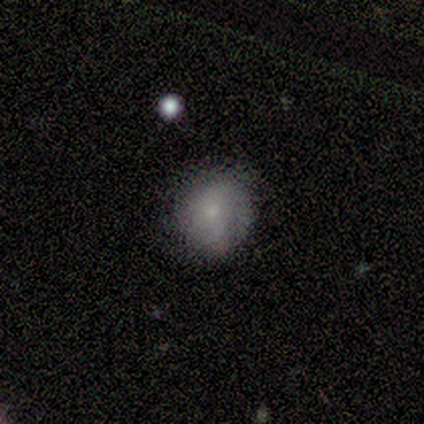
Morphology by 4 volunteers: smooth_or_featured: smooth (p=0.50) [tied with: featured or disk p=0.50]
how_rounded: round (p=1.00)
merging: none (p=1.00)